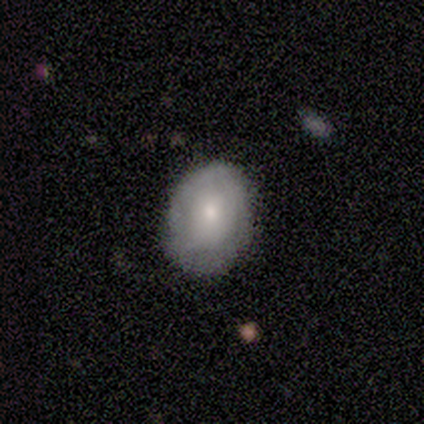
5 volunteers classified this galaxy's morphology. A smooth galaxy with no disk features (60%) that is round (67%).

Vote fractions:
- Smooth or featured? smooth: 60% / featured or disk: 40% / star or artifact: 0%
- How rounded? round: 67% / in between: 33% / cigar-shaped: 0%
- Merging? none: 80% / minor disturbance: 20% / major disturbance: 0% / merger: 0%